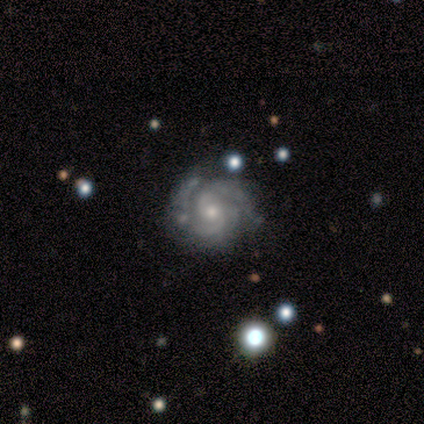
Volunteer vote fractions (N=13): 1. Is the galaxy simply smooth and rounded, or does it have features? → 77% featured or disk, 15% smooth, 8% star or artifact.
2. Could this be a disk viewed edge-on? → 100% no, 0% yes.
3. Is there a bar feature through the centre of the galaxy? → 90% no, 10% weak, 0% strong.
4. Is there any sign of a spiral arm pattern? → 100% yes, 0% no.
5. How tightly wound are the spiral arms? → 80% tight, 20% medium, 0% loose.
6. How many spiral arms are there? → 30% 2 (tied), 30% 3 (tied), 30% can't tell (tied), 10% 4, 0% 1, 0% more than 4.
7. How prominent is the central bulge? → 60% small, 40% moderate, 0% dominant, 0% large, 0% none.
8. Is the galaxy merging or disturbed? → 42% none (tied), 42% minor disturbance (tied), 8% major disturbance, 8% merger.